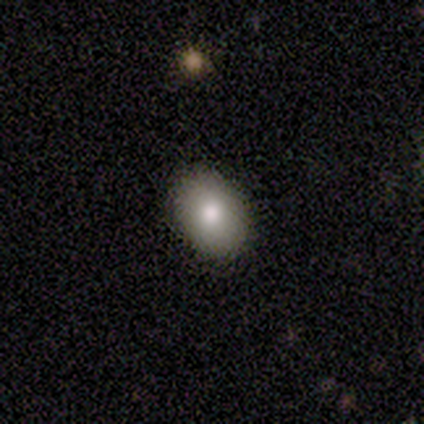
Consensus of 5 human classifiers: Volunteers were most divided on "merging": none: 80%, minor disturbance: 20%, major disturbance: 0%, merger: 0%. More confident: smooth or featured — smooth (100%); how rounded — in between (100%).